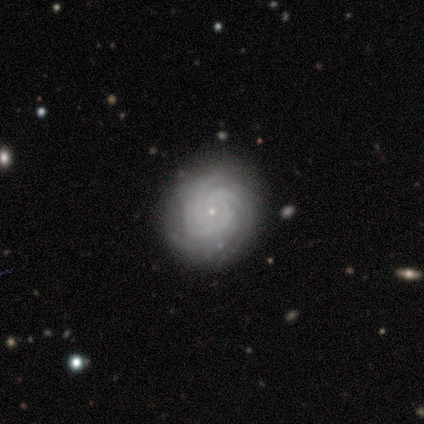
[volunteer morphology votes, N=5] Smooth or featured? 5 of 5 (100%) said featured or disk. Edge-on disk? 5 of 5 (100%) said no. Bar? 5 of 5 (100%) said no. Spiral arms? 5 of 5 (100%) said yes. Spiral winding? 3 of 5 (60%) said tight. Spiral arm count? 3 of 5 (60%) said can't tell. Bulge size? 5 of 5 (100%) said small. Merging? 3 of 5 (60%) said none.